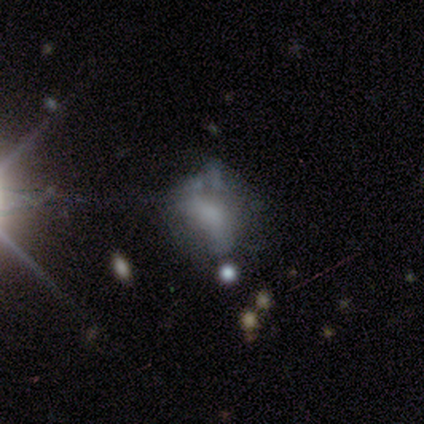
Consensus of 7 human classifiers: smooth 71%, featured or disk 29%, star or artifact 0%. Down the decision tree: how rounded — in between (60%); merging — major disturbance (43%).